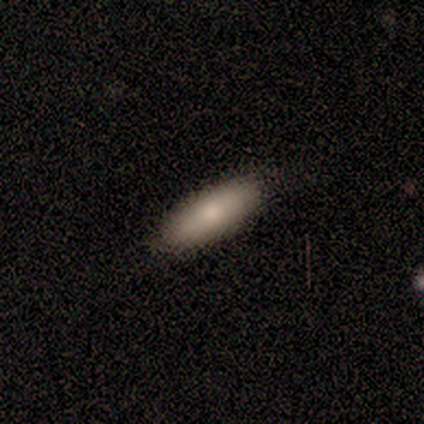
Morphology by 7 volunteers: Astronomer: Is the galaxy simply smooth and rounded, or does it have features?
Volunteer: smooth — 100%.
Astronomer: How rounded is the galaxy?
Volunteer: in between — 100%.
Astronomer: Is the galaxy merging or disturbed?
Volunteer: none — 100%.